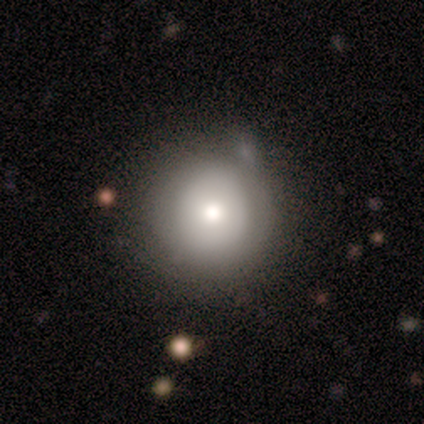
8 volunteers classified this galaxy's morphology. This appears to be a smooth galaxy with no disk features (75%) that is round (100%). Merging: none (50%, tied with minor disturbance).